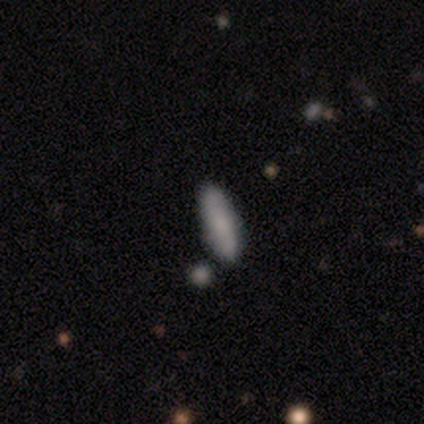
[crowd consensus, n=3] smooth_or_featured: smooth (p=0.67) [alt: star or artifact p=0.33]
how_rounded: in between (p=0.50) [tied with: cigar-shaped p=0.50]
merging: none (p=1.00)